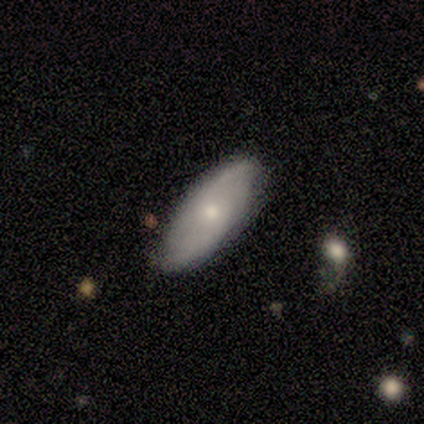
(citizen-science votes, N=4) Overall: featured or disk (75%). Edge-on disk: no (100%). Bar: no (67%; weak 33%). Spiral arms: yes (67%; no 33%). Spiral arm count: 2 (100%). Spiral winding: loose (100%). Bulge size: small (67%; large 33%). Merging: none (100%).